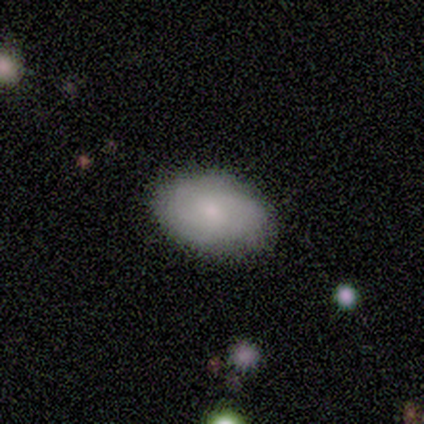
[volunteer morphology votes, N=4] Smooth or featured?
  - smooth: 75% *
  - featured or disk: 25%
  - star or artifact: 0%
How rounded?
  - in between: 100% *
  - round: 0%
  - cigar-shaped: 0%
Merging?
  - none: 100% *
  - minor disturbance: 0%
  - major disturbance: 0%
  - merger: 0%